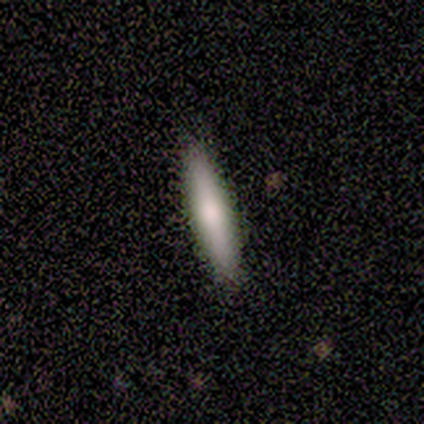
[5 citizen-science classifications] smooth-or-featured: smooth: 80% | featured or disk: 20% | star or artifact: 0%
  how-rounded: cigar-shaped: 75% | in between: 25% | round: 0%
  merging: none: 60% | minor disturbance: 40% | major disturbance: 0% | merger: 0%